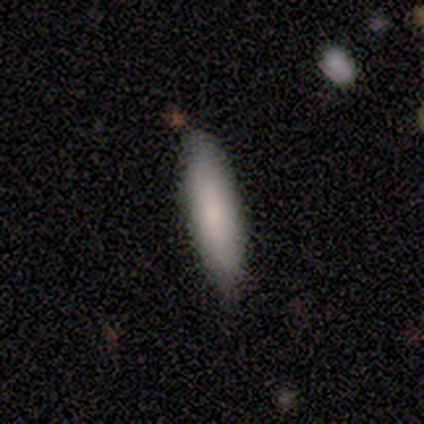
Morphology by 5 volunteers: Smooth or featured? 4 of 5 (80%) said smooth. How rounded? 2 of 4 (50%, tied with cigar-shaped) said in between. Merging? 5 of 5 (100%) said none.